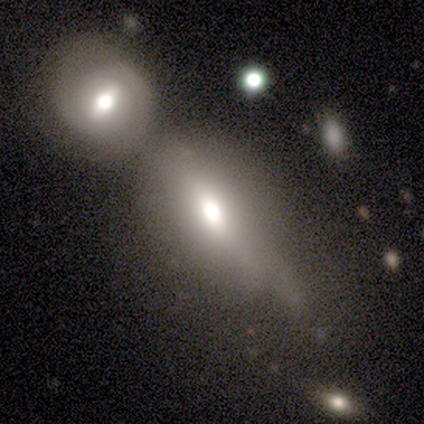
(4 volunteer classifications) A smooth galaxy with no disk features (50%) that is in between round and cigar-shaped (50%, tied with cigar-shaped).

Vote fractions:
- Smooth or featured? smooth: 50% / featured or disk: 25% / star or artifact: 25%
- How rounded? in between: 50% (tied) / cigar-shaped: 50% (tied) / round: 0%
- Merging? merger: 67% / major disturbance: 33% / none: 0% / minor disturbance: 0%